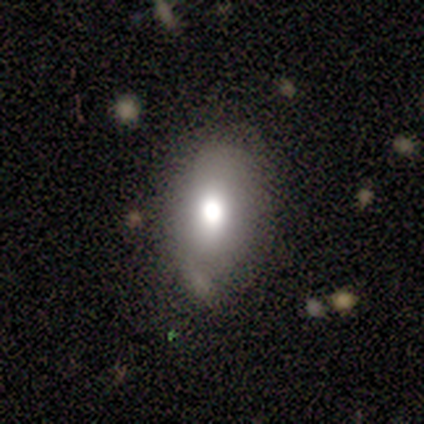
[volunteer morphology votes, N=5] A smooth galaxy with no disk features (60%) that is in between round and cigar-shaped (67%). Merging: none (50%, tied with minor disturbance).